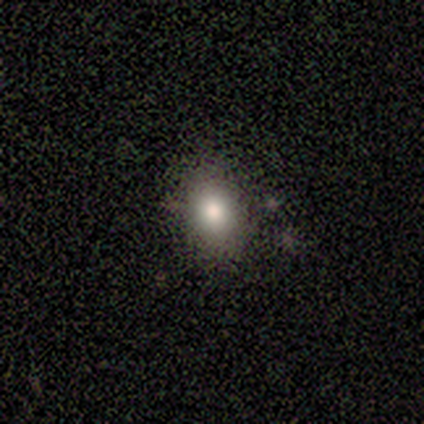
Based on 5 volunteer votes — Smooth or featured? 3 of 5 (60%) said smooth. How rounded? 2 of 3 (67%) said in between. Merging? 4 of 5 (80%) said none.